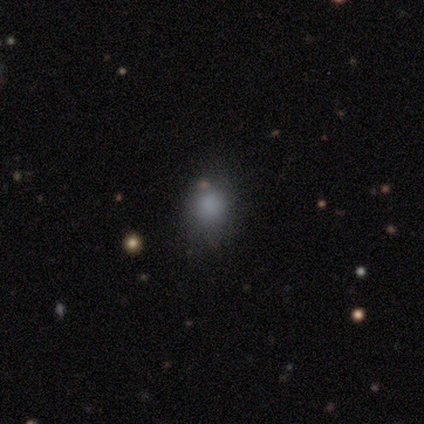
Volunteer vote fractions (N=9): A smooth galaxy with no disk features (78%) that is in between round and cigar-shaped (57%).

Vote fractions:
- Smooth or featured? smooth: 78% / star or artifact: 22% / featured or disk: 0%
- How rounded? in between: 57% / round: 43% / cigar-shaped: 0%
- Merging? none: 71% / major disturbance: 29% / minor disturbance: 0% / merger: 0%